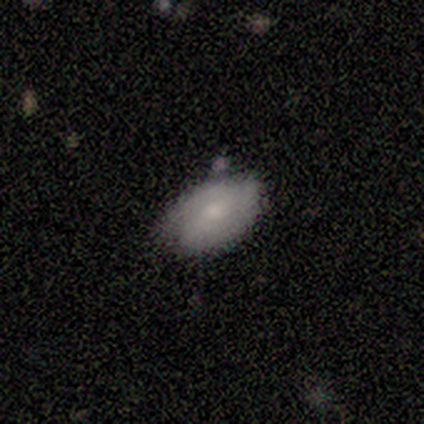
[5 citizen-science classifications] smooth-or-featured: smooth: 60% | featured or disk: 40% | star or artifact: 0%
  how-rounded: in between: 100% | round: 0% | cigar-shaped: 0%
  merging: none: 100% | minor disturbance: 0% | major disturbance: 0% | merger: 0%